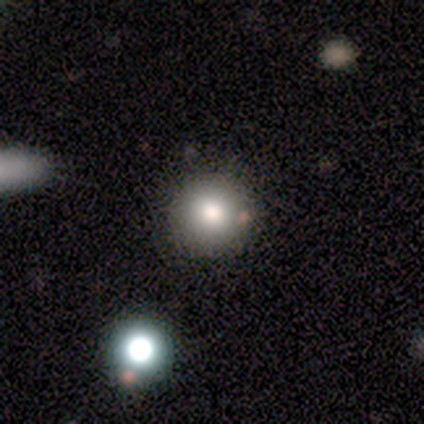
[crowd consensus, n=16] Overall: smooth (94%). How rounded: round (93%). Merging: none (94%).